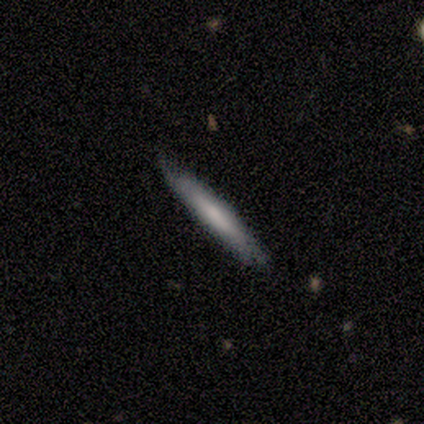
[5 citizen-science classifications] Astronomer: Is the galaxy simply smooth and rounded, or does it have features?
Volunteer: featured or disk — 60% (runner-up: smooth, 40%).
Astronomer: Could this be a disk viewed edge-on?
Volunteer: yes — 100%.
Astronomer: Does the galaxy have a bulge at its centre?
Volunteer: none — 67%.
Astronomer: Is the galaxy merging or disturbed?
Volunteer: none — 100%.